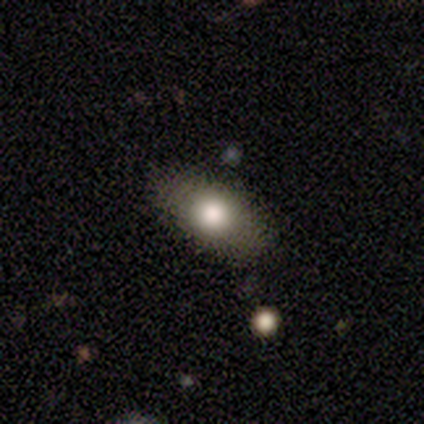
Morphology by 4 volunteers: Smooth or featured?
  - smooth: 50% * (tied)
  - featured or disk: 50% * (tied)
  - star or artifact: 0%
How rounded?
  - in between: 100% *
  - round: 0%
  - cigar-shaped: 0%
Merging?
  - none: 75% *
  - merger: 25%
  - minor disturbance: 0%
  - major disturbance: 0%